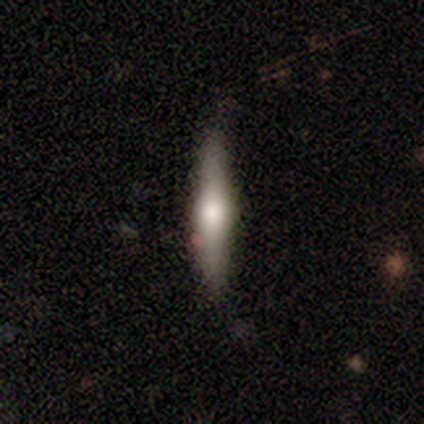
Morphology: type=smooth (100%); roundness=cigar-shaped (100%); merging=minor disturbance (100%).